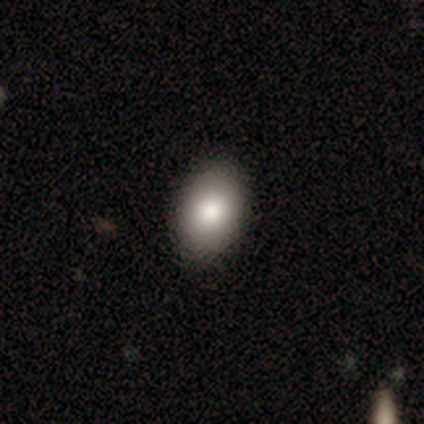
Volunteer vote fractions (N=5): A smooth galaxy with no disk features (80%) that is in between round and cigar-shaped (100%). Merging: none (75%).